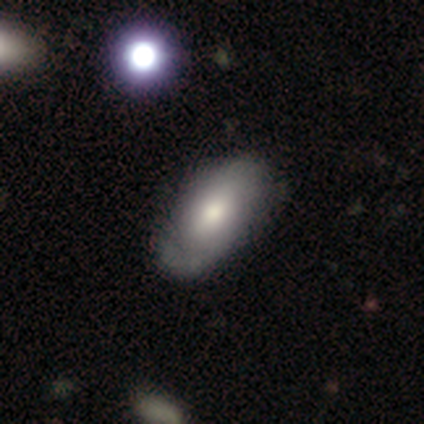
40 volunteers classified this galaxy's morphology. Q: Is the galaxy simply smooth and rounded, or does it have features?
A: smooth — 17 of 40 (42%).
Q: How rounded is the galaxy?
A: in between — 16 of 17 (94%).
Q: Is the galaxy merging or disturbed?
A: none — 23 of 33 (70%).